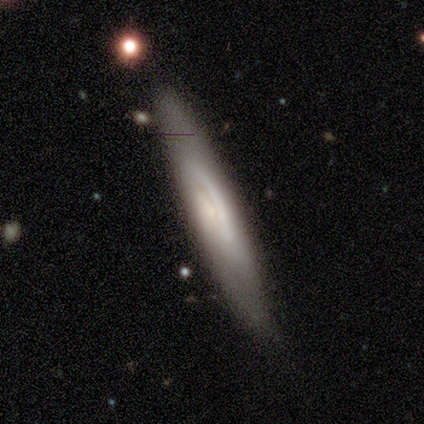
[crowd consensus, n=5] Volunteers were most divided on "smooth or featured": smooth: 60%, featured or disk: 40%, star or artifact: 0%. More confident: merging — none (100%); how rounded — cigar-shaped (67%).